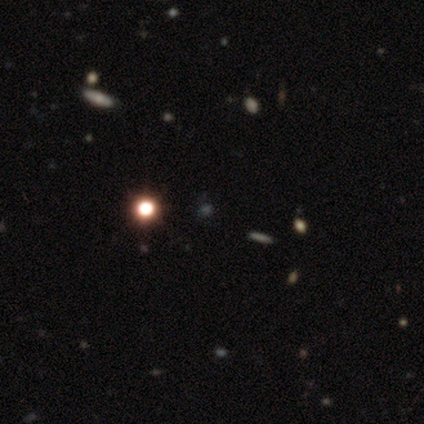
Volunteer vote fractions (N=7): A star or artifact, not a galaxy (71%).

Vote fractions:
- Smooth or featured? star or artifact: 71% / smooth: 29% / featured or disk: 0%